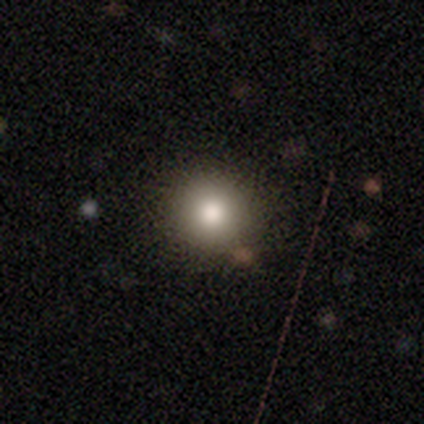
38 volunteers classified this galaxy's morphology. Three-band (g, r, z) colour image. It shows a smooth galaxy with no disk features (71%) that is round (89%). Merging: none (94%).